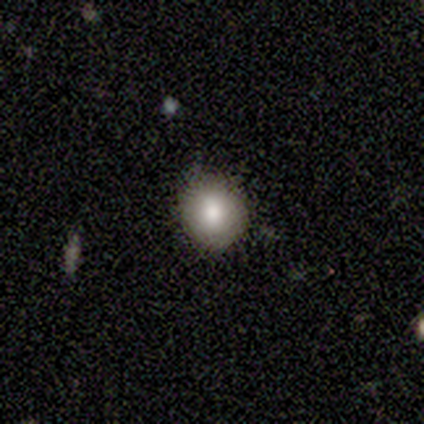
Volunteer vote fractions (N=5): smooth-or-featured: smooth: 100% | featured or disk: 0% | star or artifact: 0%
  how-rounded: round: 100% | in between: 0% | cigar-shaped: 0%
  merging: none: 100% | minor disturbance: 0% | major disturbance: 0% | merger: 0%